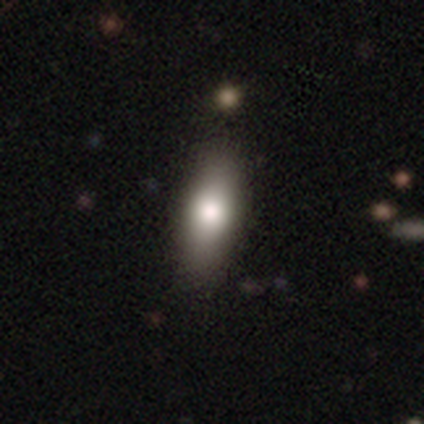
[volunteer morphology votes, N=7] Smooth or featured: smooth — 86% (featured or disk — 14%)
How rounded: in between — 100%
Merging: none — 100%